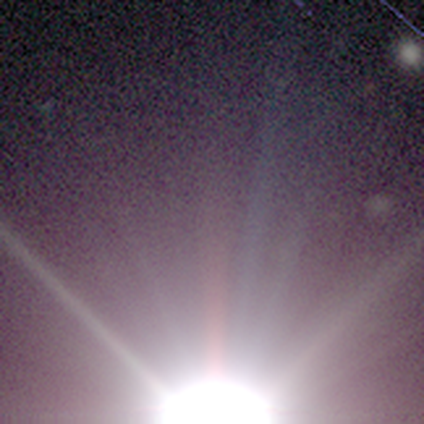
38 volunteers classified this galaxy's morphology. Smooth or featured: star or artifact — 100%